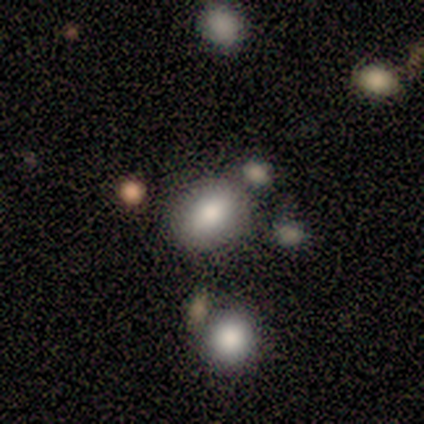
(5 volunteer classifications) Q: Smooth or featured?
A: smooth (80%); runner-up: star or artifact (20%)
Q: How rounded?
A: in between (75%); runner-up: round (25%)
Q: Merging?
A: none (75%); runner-up: merger (25%)